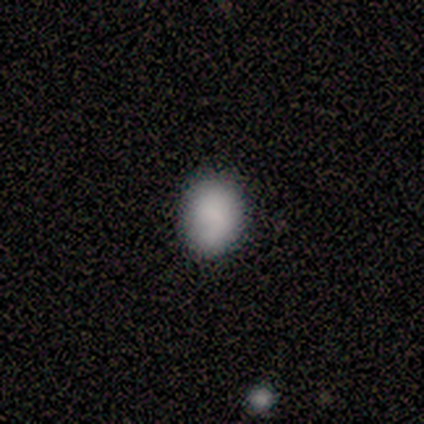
A smooth galaxy with no disk features (71%) that is round (58%). Merging: none (80%).